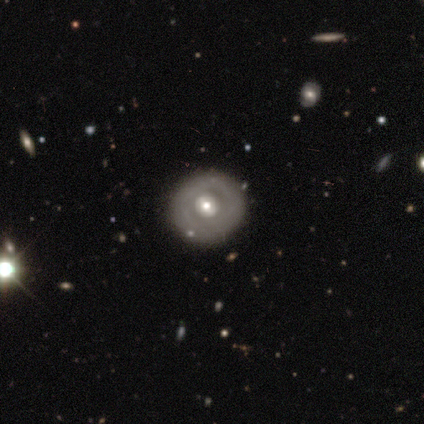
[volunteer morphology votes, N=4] Smooth or featured? 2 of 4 (50%, tied with featured or disk) said smooth. How rounded? 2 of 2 (100%) said round. Merging? 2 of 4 (50%, tied with minor disturbance) said none.